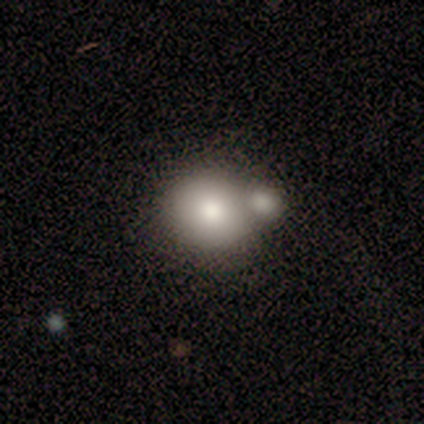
A smooth galaxy with no disk features (80%) that is round (50%, tied with in between). Merging: merger (100%).